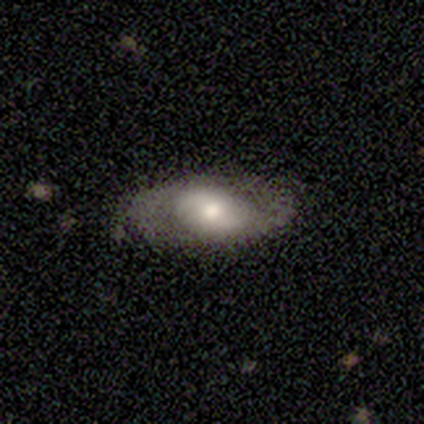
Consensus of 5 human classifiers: A smooth galaxy with no disk features (80%) that is in between round and cigar-shaped (100%).

Vote fractions:
- Smooth or featured? smooth: 80% / featured or disk: 20% / star or artifact: 0%
- How rounded? in between: 100% / round: 0% / cigar-shaped: 0%
- Merging? none: 80% / minor disturbance: 20% / major disturbance: 0% / merger: 0%